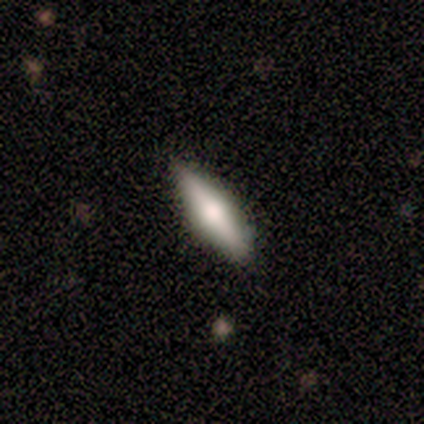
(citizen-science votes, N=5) Smooth or featured?
  - smooth: 60% *
  - featured or disk: 40%
  - star or artifact: 0%
How rounded?
  - cigar-shaped: 100% *
  - round: 0%
  - in between: 0%
Merging?
  - none: 80% *
  - minor disturbance: 20%
  - major disturbance: 0%
  - merger: 0%